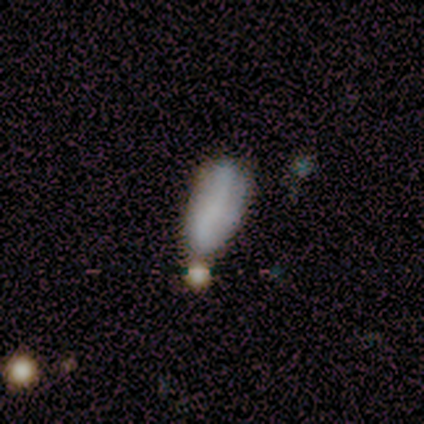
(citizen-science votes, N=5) This appears to be a featured or disk galaxy (60%) with a strong bar (33%, tied with weak and no), no spiral arms (100%) and no central bulge (100%). Merging: none (50%).